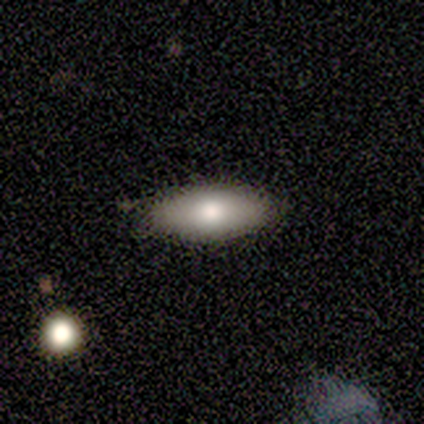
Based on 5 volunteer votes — A smooth galaxy with no disk features (60%) that is in between round and cigar-shaped (100%). Merging: none (80%).